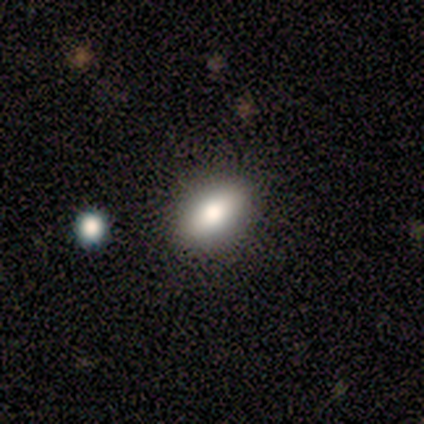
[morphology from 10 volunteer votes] smooth-or-featured: smooth: 80% | featured or disk: 20% | star or artifact: 0%
  how-rounded: in between: 100% | round: 0% | cigar-shaped: 0%
  merging: none: 100% | minor disturbance: 0% | major disturbance: 0% | merger: 0%